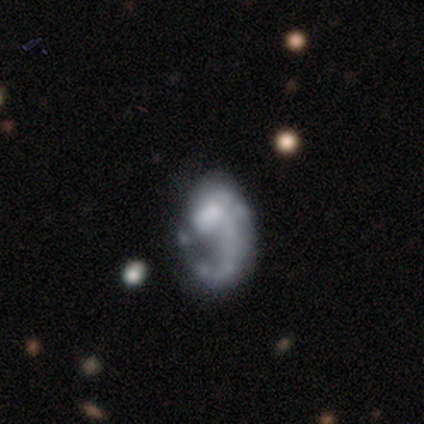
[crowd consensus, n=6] Morphology: type=featured or disk (83%); edge-on=no (80%); bar=no (100%); spiral arms=no (75%); bulge=none (75%); merging=major disturbance (67%).